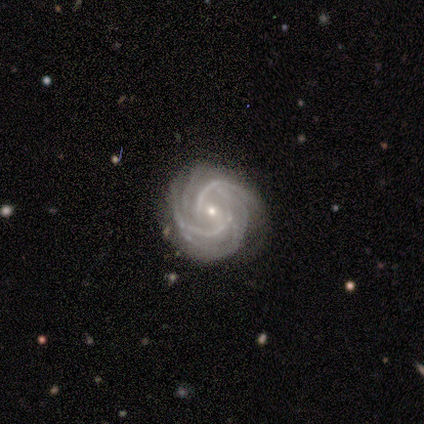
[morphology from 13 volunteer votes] A featured or disk galaxy (100%) with no bar (54%), 2 (23%, tied with 3 and more than 4) tight (62%) spiral arms (100%) and a small central bulge (85%).

Vote fractions:
- Smooth or featured? featured or disk: 100% / smooth: 0% / star or artifact: 0%
- Edge-on disk? no: 100% / yes: 0%
- Bar? no: 54% / weak: 31% / strong: 15%
- Spiral arms? yes: 100% / no: 0%
- Spiral winding? tight: 62% / medium: 38% / loose: 0%
- Spiral arm count? 2: 23% (tied) / 3: 23% (tied) / more than 4: 23% (tied) / 4: 15% / can't tell: 15% / 1: 0%
- Bulge size? small: 85% / moderate: 15% / dominant: 0% / large: 0% / none: 0%
- Merging? none: 69% / minor disturbance: 31% / major disturbance: 0% / merger: 0%